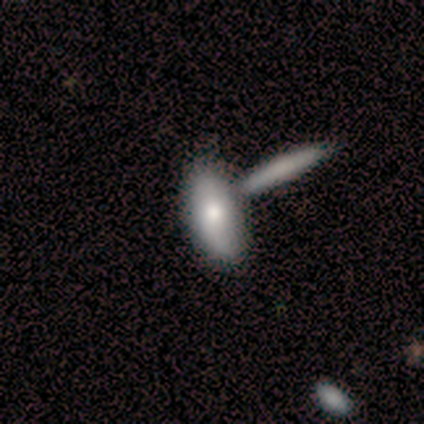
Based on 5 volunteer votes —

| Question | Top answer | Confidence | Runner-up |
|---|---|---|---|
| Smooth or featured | smooth | 60% | featured or disk (40%) |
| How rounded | in between | 67% | cigar-shaped (33%) |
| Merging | none | 60% | major disturbance (20%) |